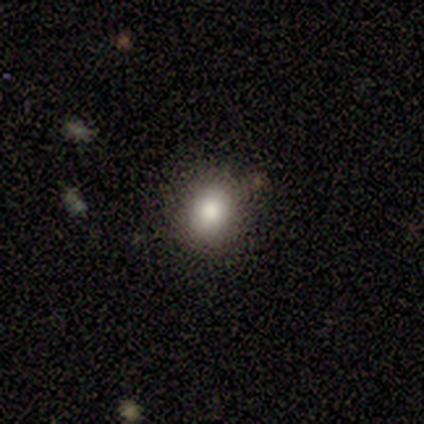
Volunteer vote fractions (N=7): Overall: smooth (86%). How rounded: round (50%, tied with in between). Merging: none (86%).